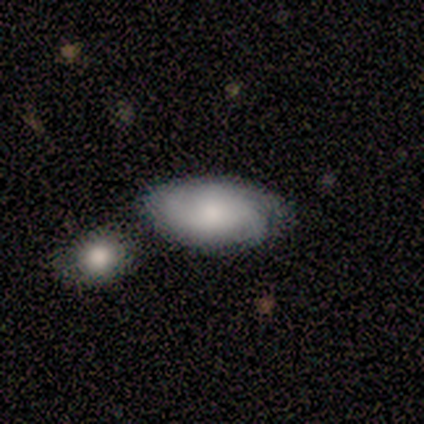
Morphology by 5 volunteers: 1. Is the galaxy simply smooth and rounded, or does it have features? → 60% smooth, 40% featured or disk, 0% star or artifact.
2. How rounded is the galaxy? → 100% in between, 0% round, 0% cigar-shaped.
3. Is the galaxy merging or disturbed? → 60% none, 20% minor disturbance, 20% merger, 0% major disturbance.